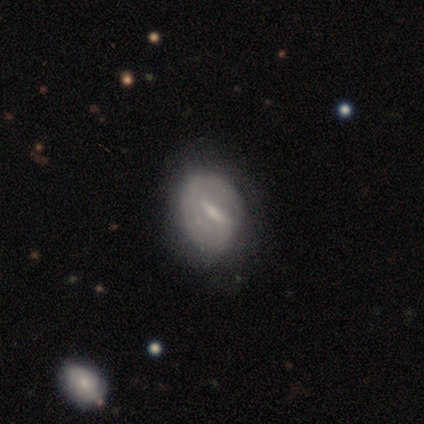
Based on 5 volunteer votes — Overall: featured or disk (60%; smooth 40%). Edge-on disk: no (100%). Bar: strong (67%; weak 33%). Spiral arms: yes (67%; no 33%). Spiral arm count: 2 (100%). Spiral winding: tight (50%, tied with loose). Bulge size: moderate (67%; small 33%). Merging: none (40%, tied with minor disturbance).